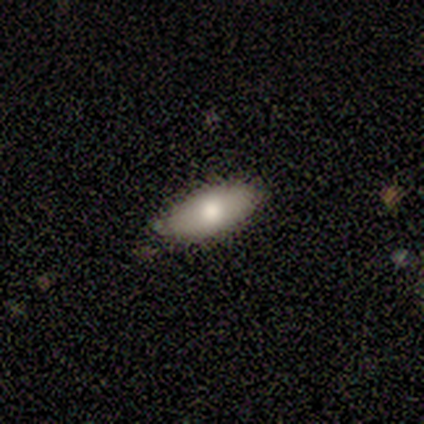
smooth-or-featured: smooth: 60% | featured or disk: 40% | star or artifact: 0%
  how-rounded: in between: 100% | round: 0% | cigar-shaped: 0%
  merging: none: 80% | minor disturbance: 20% | major disturbance: 0% | merger: 0%